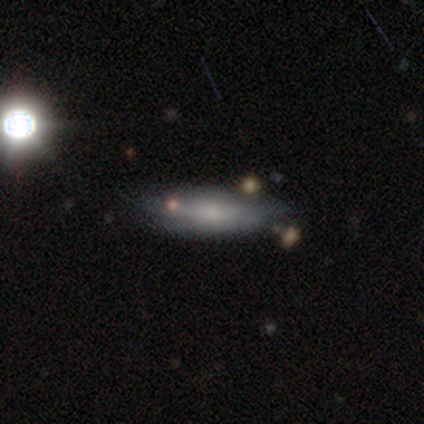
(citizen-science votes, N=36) smooth 75%, featured or disk 19%, star or artifact 6%. Down the decision tree: how rounded — in between (59%); merging — none (50%).